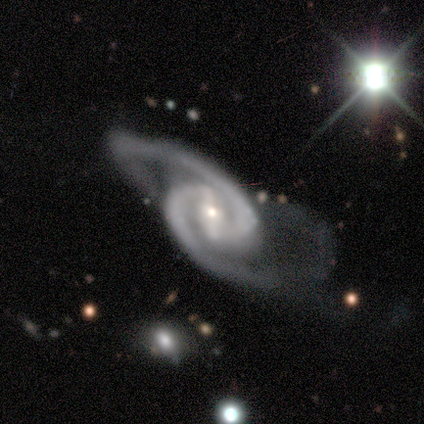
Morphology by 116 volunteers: Q: Smooth or featured?
A: featured or disk (95%); runner-up: star or artifact (3%)
Q: Edge-on disk?
A: no (97%); runner-up: yes (3%)
Q: Bar?
A: strong (75%); runner-up: weak (23%)
Q: Spiral arms?
A: yes (100%)
Q: Spiral winding?
A: medium (56%); runner-up: tight (22%)
Q: Spiral arm count?
A: 2 (98%); runner-up: 3 (1%)
Q: Bulge size?
A: small (57%); runner-up: moderate (39%)
Q: Merging?
A: major disturbance (59%); runner-up: minor disturbance (20%)